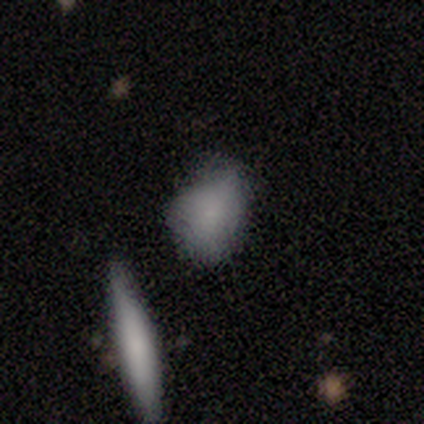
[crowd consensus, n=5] Smooth or featured: smooth — 100%
How rounded: in between — 80% (round — 20%)
Merging: minor disturbance — 40% (tied with merger — 40%)